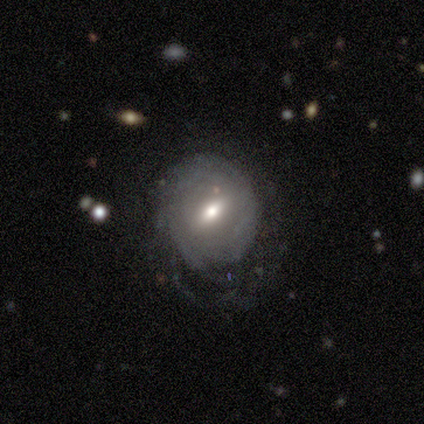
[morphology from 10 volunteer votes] type=featured or disk (80%); edge-on=no (100%); bar=strong (62%); spiral arms=yes (75%); winding=tight (67%); arm count=can't tell (67%); bulge=moderate (62%); merging=none (44%, tied with minor disturbance).